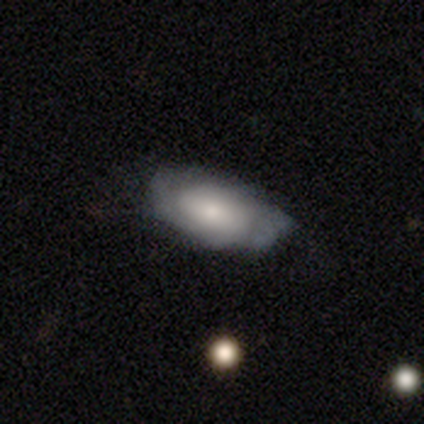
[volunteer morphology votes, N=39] Q: Smooth or featured?
A: smooth (51%); runner-up: featured or disk (36%)
Q: How rounded?
A: in between (95%); runner-up: cigar-shaped (5%)
Q: Merging?
A: none (56%); runner-up: minor disturbance (38%)